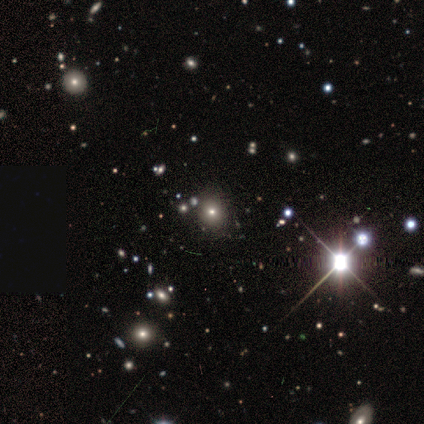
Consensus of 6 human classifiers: This appears to be a star or artifact, not a galaxy (67%).